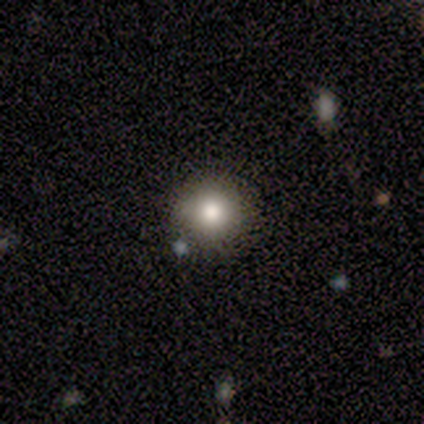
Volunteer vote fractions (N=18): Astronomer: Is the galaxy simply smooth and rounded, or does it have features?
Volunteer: smooth — 67%.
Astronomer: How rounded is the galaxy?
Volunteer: round — 92%.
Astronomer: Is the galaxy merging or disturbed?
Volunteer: none — 93%.